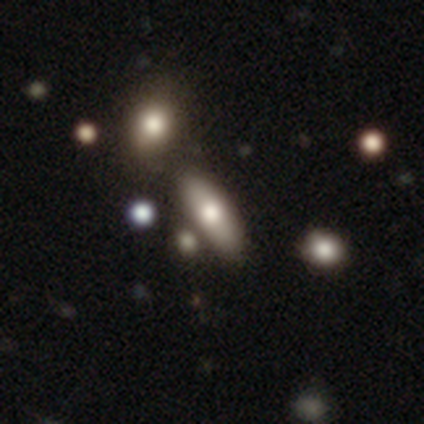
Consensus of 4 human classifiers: Q: Smooth or featured?
A: smooth (75%); runner-up: star or artifact (25%)
Q: How rounded?
A: in between (67%); runner-up: cigar-shaped (33%)
Q: Merging?
A: none (100%)